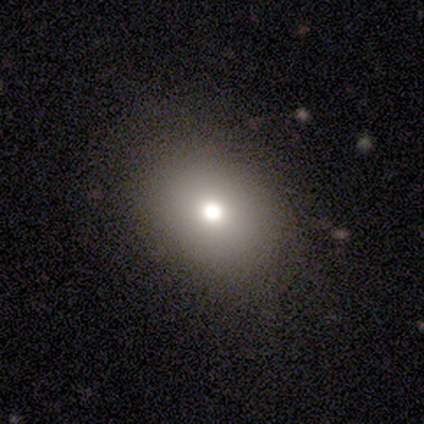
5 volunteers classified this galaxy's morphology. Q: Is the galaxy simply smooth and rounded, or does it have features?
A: smooth — 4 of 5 (80%).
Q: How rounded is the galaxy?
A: in between — 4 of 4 (100%).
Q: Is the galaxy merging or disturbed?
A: none — 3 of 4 (75%).